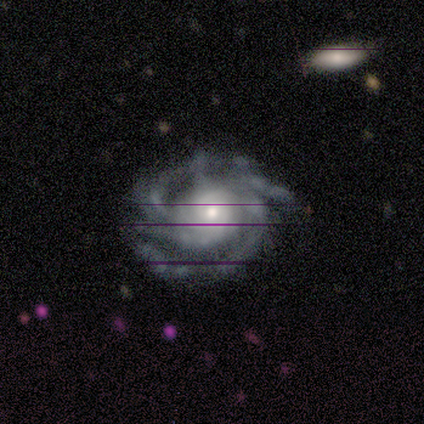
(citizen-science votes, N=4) This appears to be a featured or disk galaxy (100%) with no bar (50%), tight (50%, tied with medium) spiral arms (100%) and a moderate central bulge (50%). Merging: none (75%).